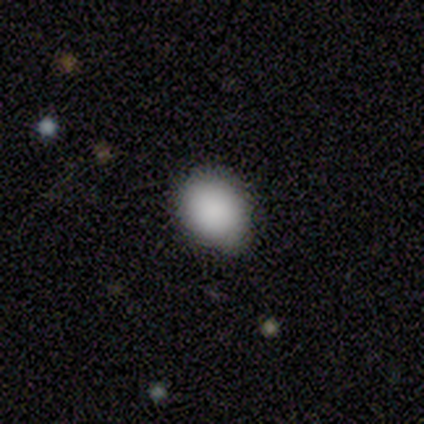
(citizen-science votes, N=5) smooth 100%, featured or disk 0%, star or artifact 0%. Down the decision tree: how rounded — in between (60%); merging — none (100%).